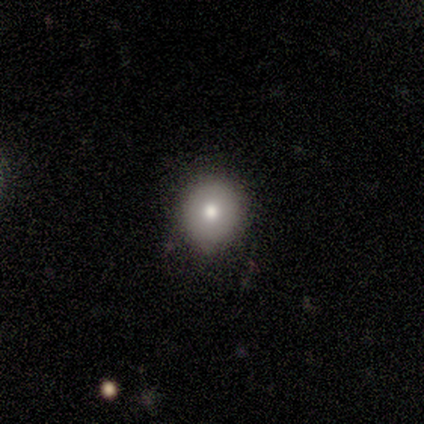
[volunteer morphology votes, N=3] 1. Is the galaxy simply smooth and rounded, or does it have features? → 67% smooth, 33% featured or disk, 0% star or artifact.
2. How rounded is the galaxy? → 100% round, 0% in between, 0% cigar-shaped.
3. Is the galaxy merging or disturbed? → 67% none, 33% minor disturbance, 0% major disturbance, 0% merger.